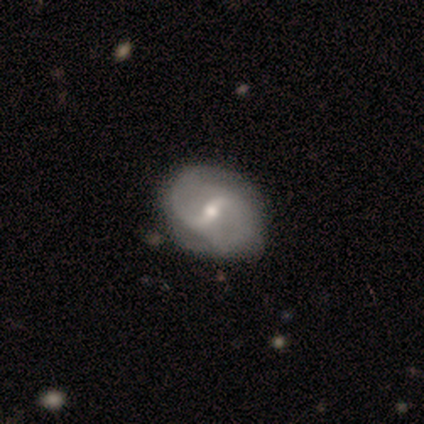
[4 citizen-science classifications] Morphology: type=featured or disk (100%); edge-on=no (75%); bar=strong (100%); spiral arms=yes (100%); winding=loose (67%); arm count=2 (100%); bulge=moderate (67%); merging=none (50%).